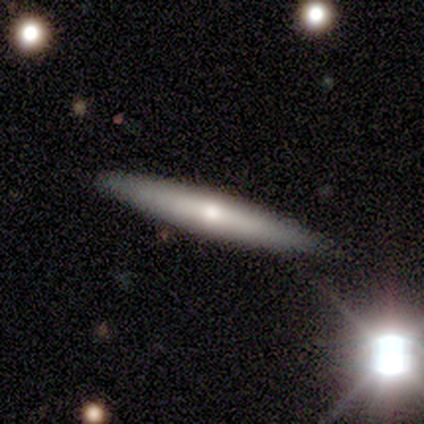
Morphology: type=smooth (60%); roundness=cigar-shaped (100%); merging=none (75%).